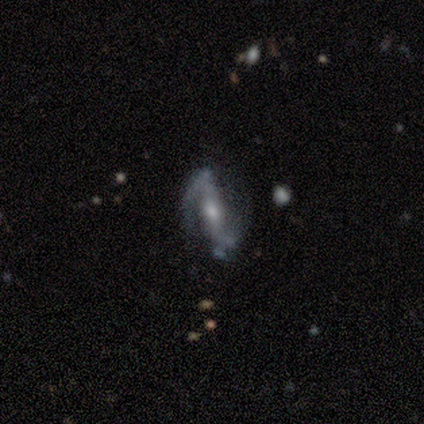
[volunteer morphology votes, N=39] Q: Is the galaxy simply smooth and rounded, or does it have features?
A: featured or disk — 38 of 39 (97%).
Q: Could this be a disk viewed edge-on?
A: no — 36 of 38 (95%).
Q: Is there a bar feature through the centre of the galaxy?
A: strong — 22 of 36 (61%).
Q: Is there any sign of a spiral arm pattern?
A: yes — 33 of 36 (92%).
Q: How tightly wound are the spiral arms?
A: loose — 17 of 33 (52%).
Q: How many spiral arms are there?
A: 2 — 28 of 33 (85%).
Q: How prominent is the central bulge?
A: moderate — 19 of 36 (53%).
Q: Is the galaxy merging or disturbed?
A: none — 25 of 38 (66%).